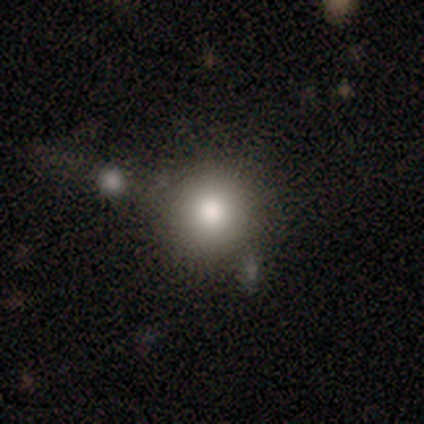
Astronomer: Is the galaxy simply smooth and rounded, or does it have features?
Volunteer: smooth — 100%.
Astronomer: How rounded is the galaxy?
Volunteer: round — 75%.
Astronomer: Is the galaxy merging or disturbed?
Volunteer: none — 50%.